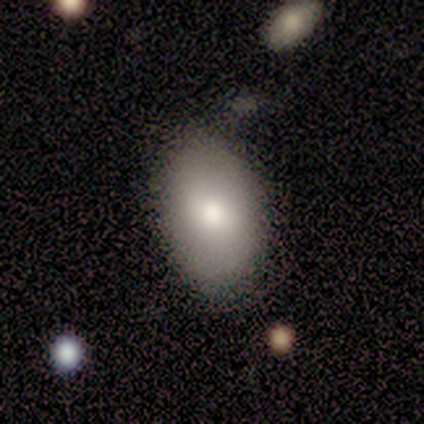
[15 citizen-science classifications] Overall: smooth (87%). How rounded: in between (92%). Merging: none (67%; minor disturbance 33%).